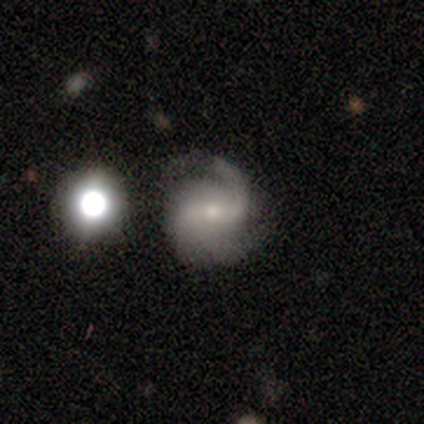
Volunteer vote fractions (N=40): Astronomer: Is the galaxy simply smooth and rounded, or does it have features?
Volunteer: featured or disk — 82%.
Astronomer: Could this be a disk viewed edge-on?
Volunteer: no — 100%.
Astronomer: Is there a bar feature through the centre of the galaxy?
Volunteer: weak — 48% (runner-up: no, 27%).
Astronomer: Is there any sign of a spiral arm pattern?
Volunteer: yes — 100%.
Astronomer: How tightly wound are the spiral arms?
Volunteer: medium — 42% (runner-up: loose, 33%).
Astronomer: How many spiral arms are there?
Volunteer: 2 — 39% (runner-up: 1, 24%).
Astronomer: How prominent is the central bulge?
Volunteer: small — 58% (runner-up: moderate, 36%).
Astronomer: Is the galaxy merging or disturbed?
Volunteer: none — 75%.